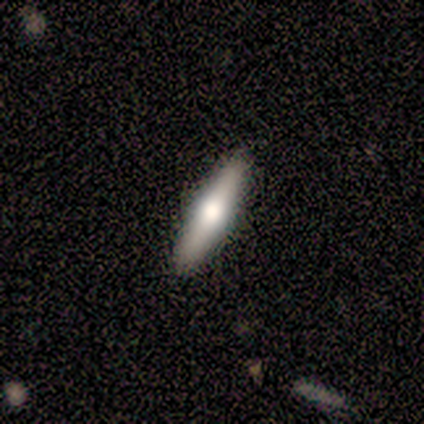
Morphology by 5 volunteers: A smooth galaxy with no disk features (60%) that is cigar-shaped (100%). Merging: none (80%).